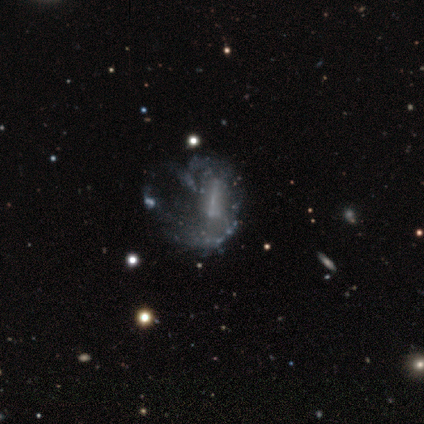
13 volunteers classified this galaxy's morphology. A featured or disk galaxy (54%) with a strong bar (57%), 1 (50%) tight (50%) spiral arms (57%) and no central bulge (57%). Merging: minor disturbance (50%).